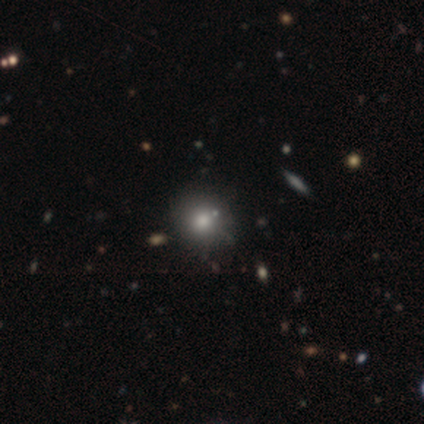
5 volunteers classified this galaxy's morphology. Smooth or featured?
  - smooth: 80% *
  - featured or disk: 20%
  - star or artifact: 0%
How rounded?
  - round: 75% *
  - in between: 25%
  - cigar-shaped: 0%
Merging?
  - none: 80% *
  - minor disturbance: 20%
  - major disturbance: 0%
  - merger: 0%